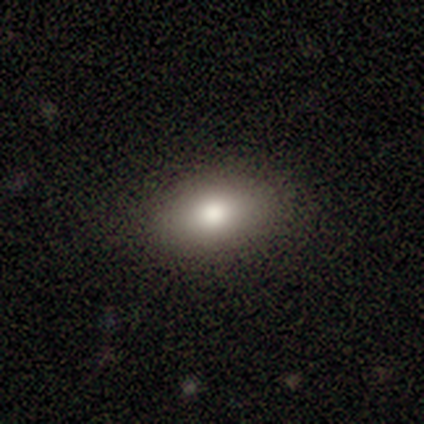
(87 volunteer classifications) Smooth or featured: smooth — 80% (star or artifact — 10%)
How rounded: in between — 84% (round — 13%)
Merging: none — 83% (minor disturbance — 13%)